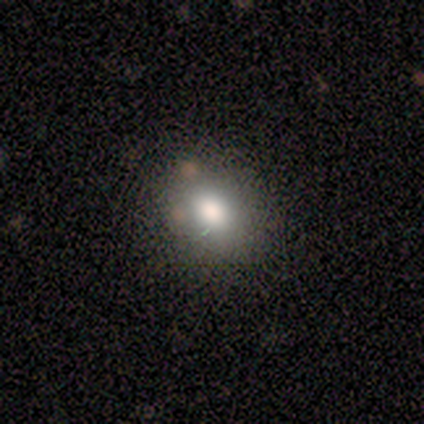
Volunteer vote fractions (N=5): smooth_or_featured: smooth (p=1.00)
how_rounded: in between (p=0.60) [alt: round p=0.40]
merging: none (p=0.60) [alt: minor disturbance p=0.40]